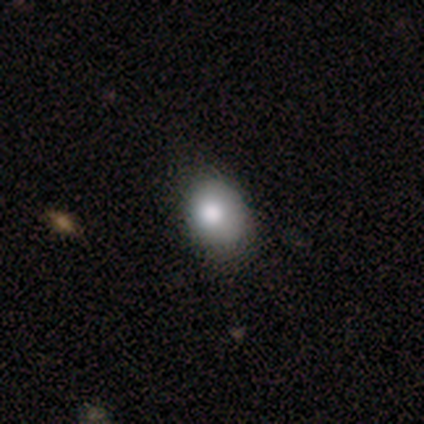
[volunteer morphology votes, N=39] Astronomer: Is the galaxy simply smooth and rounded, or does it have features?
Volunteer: smooth — 79%.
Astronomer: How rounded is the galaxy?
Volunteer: in between — 65%.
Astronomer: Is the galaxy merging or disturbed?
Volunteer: none — 37% (runner-up: minor disturbance, 13%).